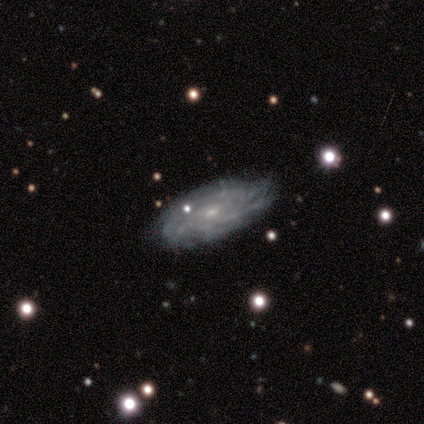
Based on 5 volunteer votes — Volunteers were most divided on "spiral arm count" (2-way tie): more than 4: 50%, can't tell: 50%, 1: 0%, 2: 0%, 3: 0%, 4: 0%. More confident: smooth or featured — featured or disk (100%); spiral arms — yes (100%); merging — none (100%); edge-on disk — no (80%); bar — no (75%); spiral winding — tight (75%); bulge size — small (75%).